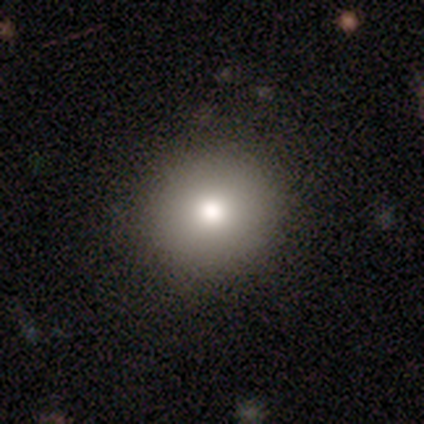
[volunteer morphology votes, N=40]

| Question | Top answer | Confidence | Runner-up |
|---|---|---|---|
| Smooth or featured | smooth | 80% | featured or disk (10%) |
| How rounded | round | 100% | — |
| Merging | none | 100% | — |